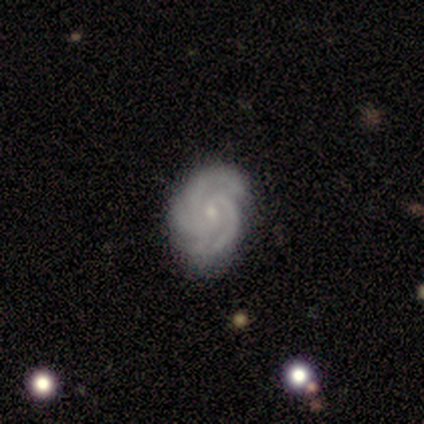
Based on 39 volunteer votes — featured or disk 90%, star or artifact 8%, smooth 3%. Down the decision tree: edge-on disk — no (97%); bar — no (74%); spiral arms — yes (100%); spiral arm count — 3 (56%); spiral winding — tight (82%); bulge size — small (82%); merging — none (83%).